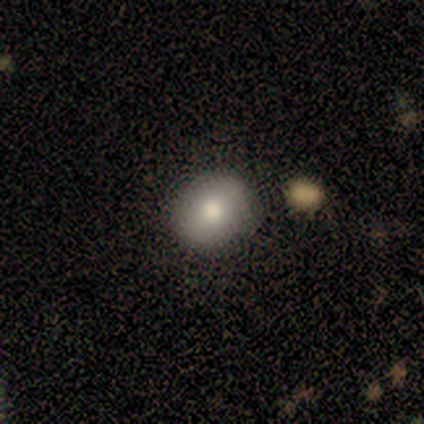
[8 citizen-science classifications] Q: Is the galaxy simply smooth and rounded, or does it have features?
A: smooth — 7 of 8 (88%).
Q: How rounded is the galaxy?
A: round — 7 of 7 (100%).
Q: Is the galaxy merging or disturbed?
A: none — 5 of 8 (62%).